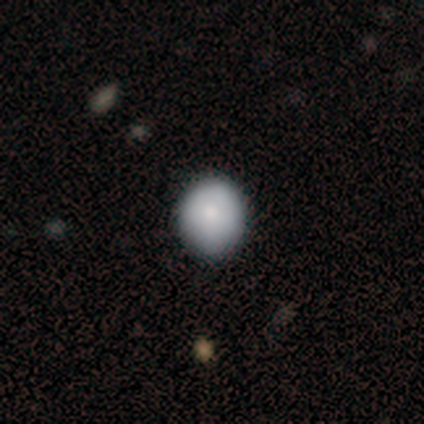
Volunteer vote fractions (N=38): smooth-or-featured: smooth: 76% | featured or disk: 18% | star or artifact: 5%
  how-rounded: round: 72% | in between: 24% | cigar-shaped: 3%
  merging: none: 67% | minor disturbance: 11% | major disturbance: 3% | merger: 0%